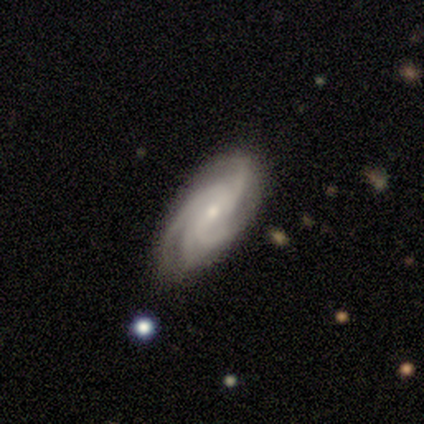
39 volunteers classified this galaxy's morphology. This is clearly a featured or disk galaxy (92%). It is clearly not viewed edge-on (92%). Bar: possibly no (52%). Spiral arm pattern: clearly yes (100%). Spiral arm count: possibly 4 (52%). Spiral winding: possibly medium (58%). Central bulge: likely small (64%). Merging: clearly none (84%).